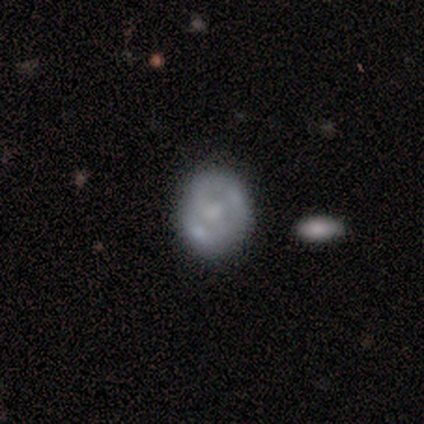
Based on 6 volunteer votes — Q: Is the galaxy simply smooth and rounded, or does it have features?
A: featured or disk — 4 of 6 (67%).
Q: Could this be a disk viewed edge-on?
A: no — 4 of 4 (100%).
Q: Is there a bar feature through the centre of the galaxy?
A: no — 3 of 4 (75%).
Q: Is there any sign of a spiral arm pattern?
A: yes — 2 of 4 (50%, tied with no).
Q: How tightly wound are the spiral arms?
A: medium — 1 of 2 (50%, tied with loose).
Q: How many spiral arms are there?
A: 2 — 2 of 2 (100%).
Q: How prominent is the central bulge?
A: none — 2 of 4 (50%).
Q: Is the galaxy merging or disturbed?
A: minor disturbance — 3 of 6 (50%).